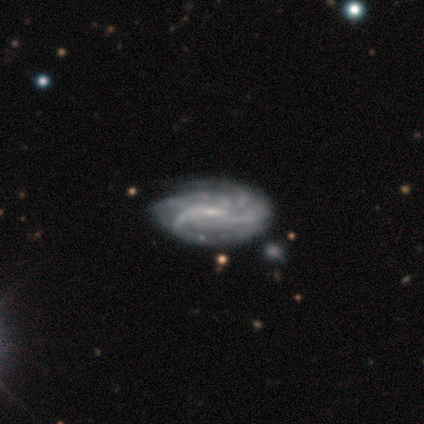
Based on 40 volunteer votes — Smooth or featured?
  - featured or disk: 88% *
  - star or artifact: 8%
  - smooth: 5%
Edge-on disk?
  - no: 97% *
  - yes: 3%
Bar?
  - weak: 68% *
  - no: 18%
  - strong: 15%
Spiral arms?
  - yes: 97% *
  - no: 3%
Spiral winding?
  - tight: 36% *
  - loose: 33%
  - medium: 30%
Spiral arm count?
  - can't tell: 36% *
  - 4: 30%
  - 3: 15%
  - more than 4: 15%
  - 2: 3%
  - 1: 0%
Bulge size?
  - small: 79% *
  - moderate: 18%
  - none: 3%
  - dominant: 0%
  - large: 0%
Merging?
  - none: 57% *
  - minor disturbance: 19%
  - merger: 11%
  - major disturbance: 0%